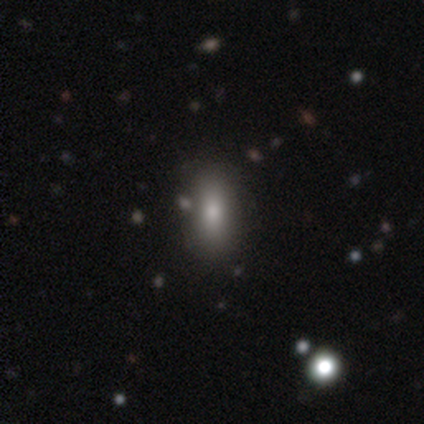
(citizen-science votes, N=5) This is clearly a smooth galaxy (80%). How rounded: likely in between (75%). Merging: clearly none (100%).